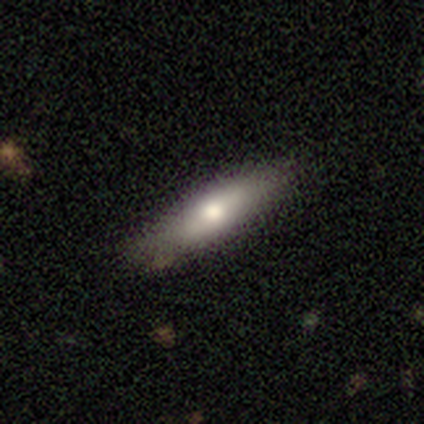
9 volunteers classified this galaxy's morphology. Smooth or featured? 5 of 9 (56%) said smooth. How rounded? 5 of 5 (100%) said cigar-shaped. Merging? 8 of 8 (100%) said none.